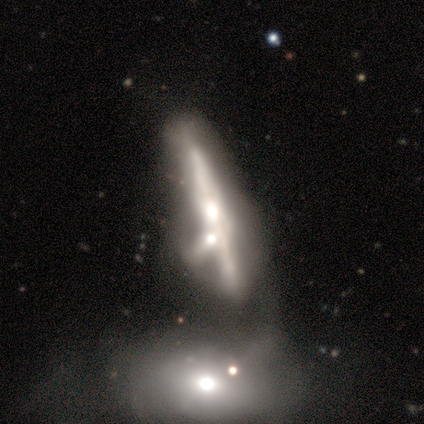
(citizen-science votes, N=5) Q: Smooth or featured?
A: smooth (60%); runner-up: featured or disk (40%)
Q: How rounded?
A: cigar-shaped (100%)
Q: Merging?
A: minor disturbance (40%); tied with: merger (40%)